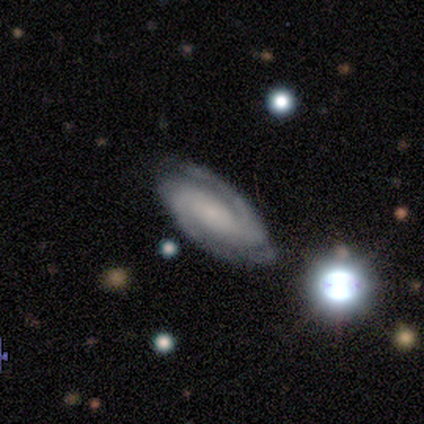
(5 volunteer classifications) A featured or disk galaxy (100%) with a weak bar (60%), 2 (100%) tight (60%) spiral arms (100%) and a small central bulge (60%).

Vote fractions:
- Smooth or featured? featured or disk: 100% / smooth: 0% / star or artifact: 0%
- Edge-on disk? no: 100% / yes: 0%
- Bar? weak: 60% / no: 40% / strong: 0%
- Spiral arms? yes: 100% / no: 0%
- Spiral winding? tight: 60% / medium: 40% / loose: 0%
- Spiral arm count? 2: 100% / 1: 0% / 3: 0% / 4: 0% / more than 4: 0% / can't tell: 0%
- Bulge size? small: 60% / none: 40% / dominant: 0% / large: 0% / moderate: 0%
- Merging? none: 100% / minor disturbance: 0% / major disturbance: 0% / merger: 0%